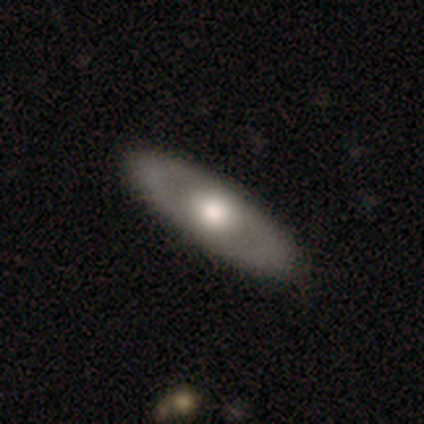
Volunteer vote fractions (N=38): Morphology: type=featured or disk (58%); edge-on=no (68%); bar=no (87%); spiral arms=no (87%); bulge=moderate (60%); merging=none (95%).